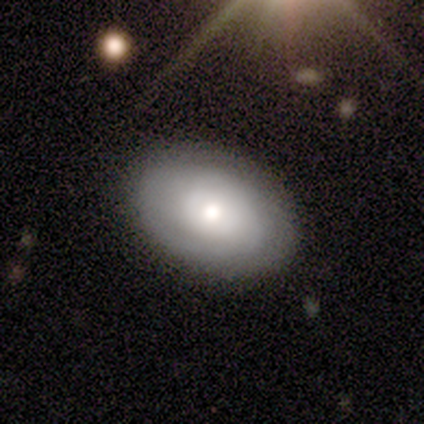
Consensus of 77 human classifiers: This is possibly a smooth galaxy (49%). How rounded: likely in between (79%). Merging: marginally none (44%).